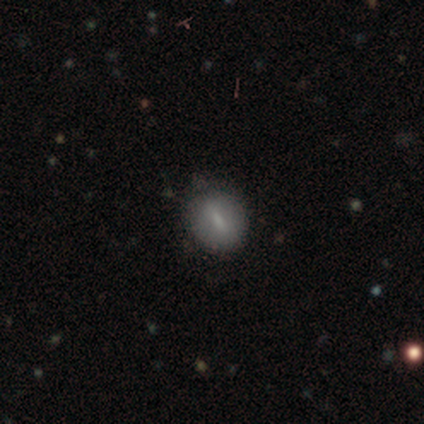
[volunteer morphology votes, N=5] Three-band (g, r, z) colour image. It shows a smooth galaxy with no disk features (80%) that is in between round and cigar-shaped (50%). Merging: none (80%).